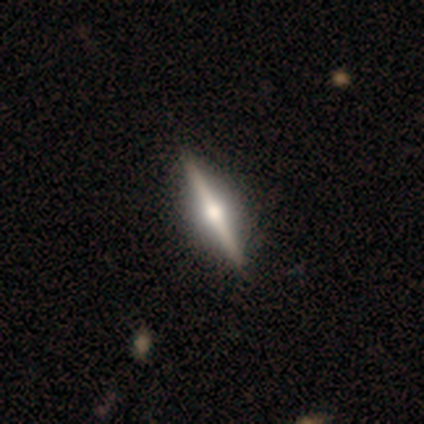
Smooth or featured? 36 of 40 (90%) said featured or disk. Edge-on disk? 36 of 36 (100%) said yes. Edge-on bulge? 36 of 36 (100%) said rounded. Merging? 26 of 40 (65%) said none.